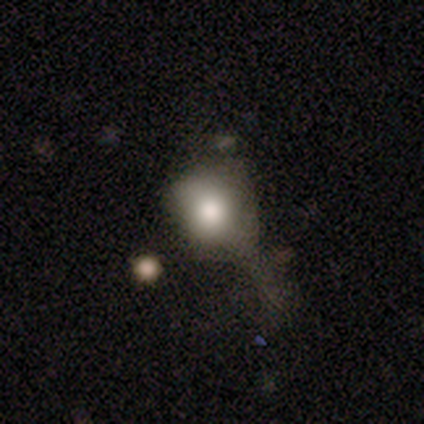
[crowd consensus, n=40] Morphology: type=smooth (70%); roundness=round (57%); merging=major disturbance (47%).